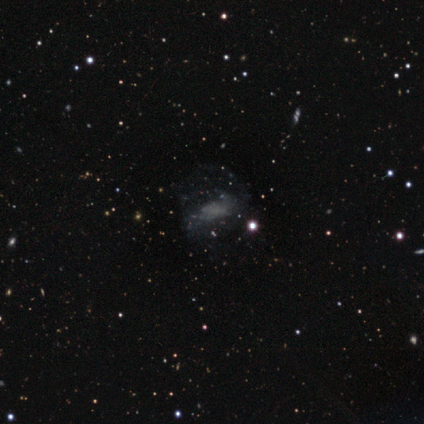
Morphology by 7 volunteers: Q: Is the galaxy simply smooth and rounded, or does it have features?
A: featured or disk — 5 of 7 (71%).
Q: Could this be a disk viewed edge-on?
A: no — 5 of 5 (100%).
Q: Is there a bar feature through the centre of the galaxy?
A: weak — 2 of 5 (40%, tied with no).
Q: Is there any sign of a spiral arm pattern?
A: no — 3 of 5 (60%).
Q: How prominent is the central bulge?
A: none — 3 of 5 (60%).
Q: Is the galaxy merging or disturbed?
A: major disturbance — 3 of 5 (60%).